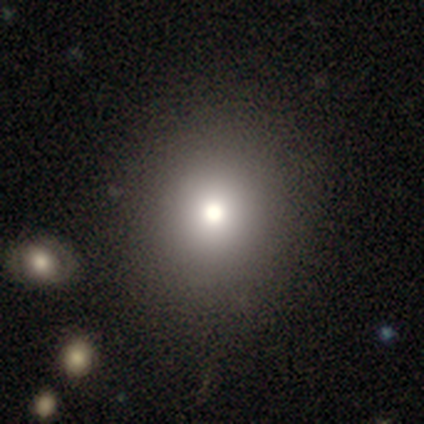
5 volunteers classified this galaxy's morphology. smooth 80%, featured or disk 20%, star or artifact 0%. Down the decision tree: how rounded — round (100%); merging — none (60%).